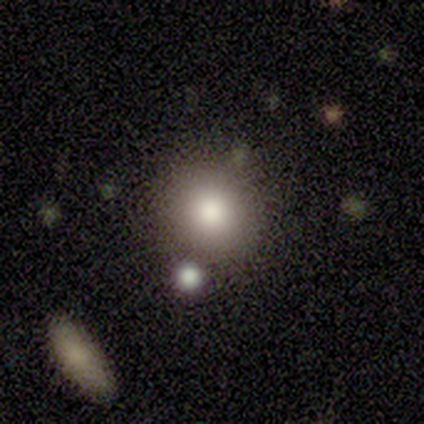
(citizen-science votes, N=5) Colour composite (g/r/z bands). It shows a smooth galaxy with no disk features (100%) that is round (60%). Merging: none (80%).